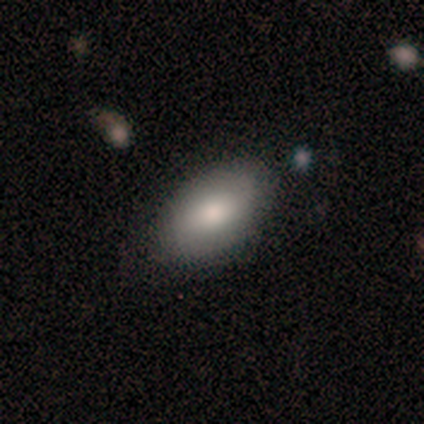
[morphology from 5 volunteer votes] smooth-or-featured: smooth: 60% | featured or disk: 40% | star or artifact: 0%
  how-rounded: in between: 100% | round: 0% | cigar-shaped: 0%
  merging: none: 80% | minor disturbance: 20% | major disturbance: 0% | merger: 0%